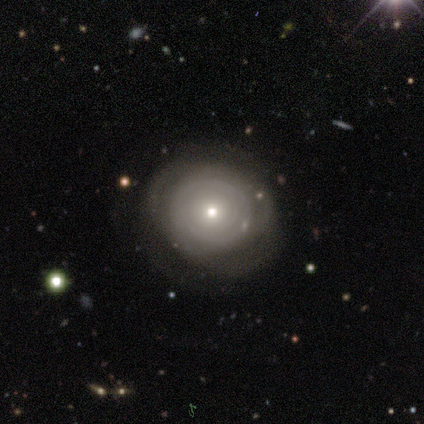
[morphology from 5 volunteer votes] This is clearly a smooth galaxy (80%). How rounded: possibly round (50%, tied with in between). Merging: likely none (60%).